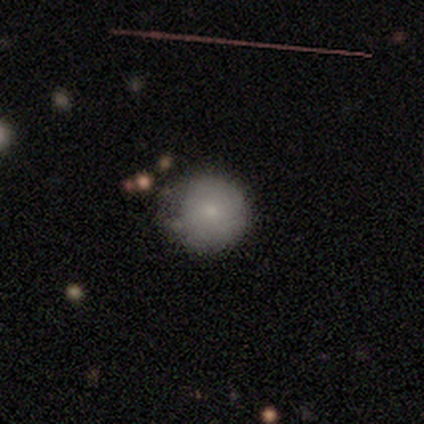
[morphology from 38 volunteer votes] Smooth or featured? smooth (87%)
How rounded? round (97%)
Merging? none (68%)